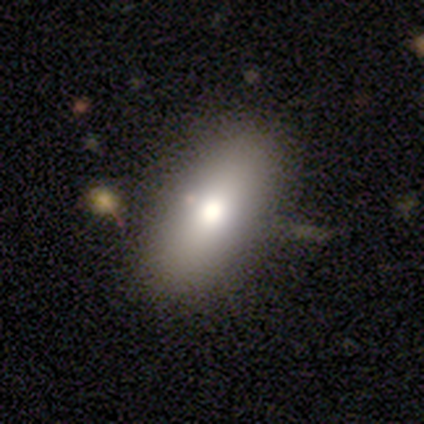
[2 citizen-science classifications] Smooth or featured? 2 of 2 (100%) said smooth. How rounded? 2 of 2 (100%) said in between. Merging? 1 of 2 (50%, tied with minor disturbance) said none.